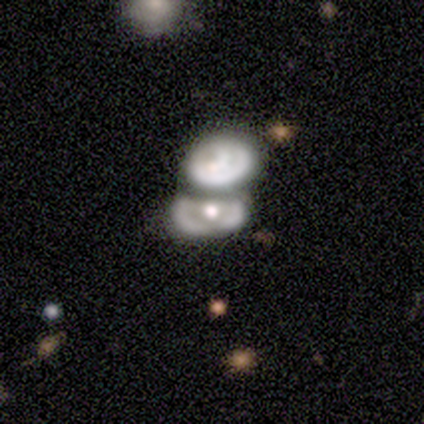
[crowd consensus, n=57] Overall: featured or disk (67%; smooth 28%). Edge-on disk: no (97%). Bar: no (97%). Spiral arms: no (68%; yes 32%). Bulge size: moderate (76%). Merging: merger (56%; none 28%).